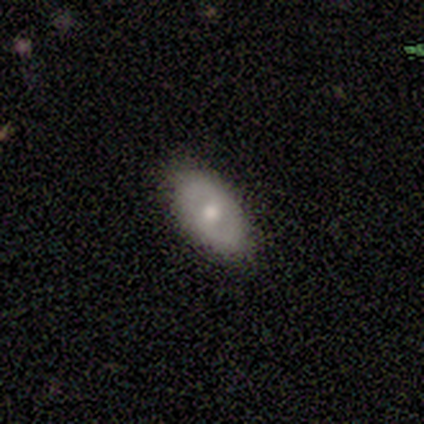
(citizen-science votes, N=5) Smooth or featured: smooth — 80% (featured or disk — 20%)
How rounded: in between — 75% (round — 25%)
Merging: none — 80% (major disturbance — 20%)